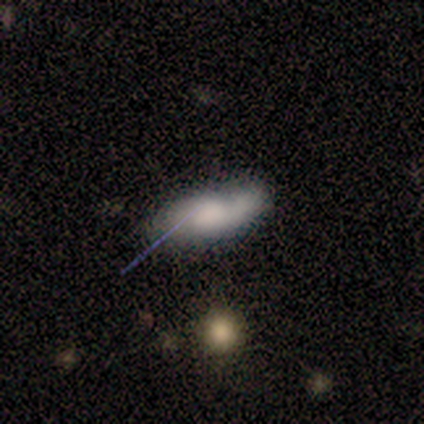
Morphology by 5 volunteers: Volunteers were most divided on "smooth or featured": smooth: 60%, star or artifact: 40%, featured or disk: 0%. More confident: how rounded — in between (100%); merging — minor disturbance (100%).